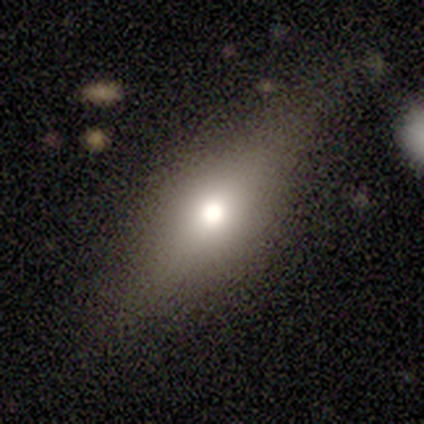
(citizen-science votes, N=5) Q: Smooth or featured?
A: smooth (100%)
Q: How rounded?
A: in between (80%); runner-up: cigar-shaped (20%)
Q: Merging?
A: none (60%); runner-up: minor disturbance (40%)